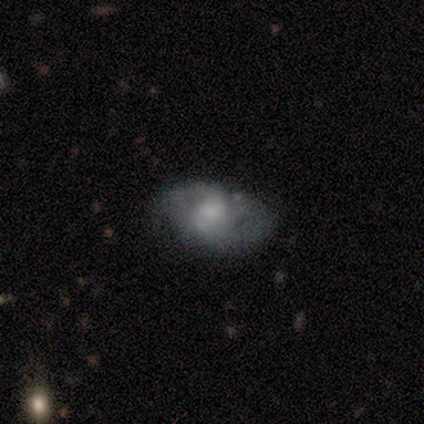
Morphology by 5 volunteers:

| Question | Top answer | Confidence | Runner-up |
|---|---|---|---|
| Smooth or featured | featured or disk | 60% | smooth (20%) |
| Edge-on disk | no | 100% | — |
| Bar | no | 100% | — |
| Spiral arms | no | 67% | yes (33%) |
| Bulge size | large | 33% | tied: moderate (33%), none (33%) |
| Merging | minor disturbance | 75% | none (25%) |